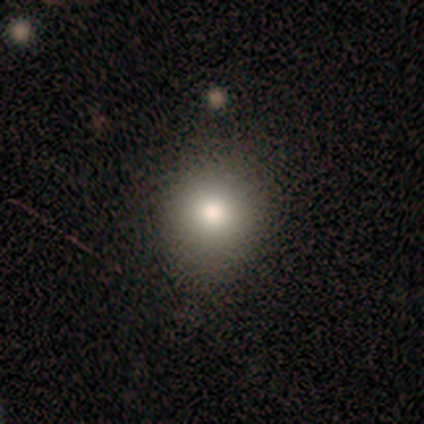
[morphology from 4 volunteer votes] Smooth or featured? smooth (75%)
How rounded? round (67%)
Merging? none (67%)